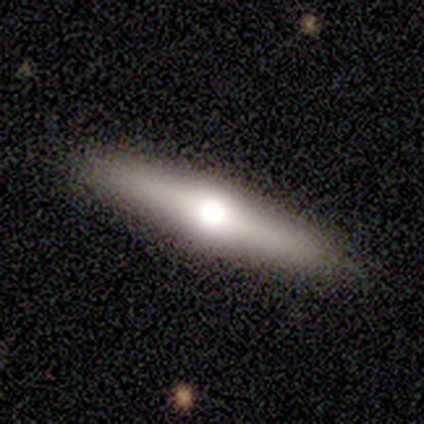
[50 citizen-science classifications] This is likely a featured or disk galaxy (70%). It is clearly viewed edge-on (89%). Edge-on bulge: clearly rounded (100%). Merging: clearly none (90%).